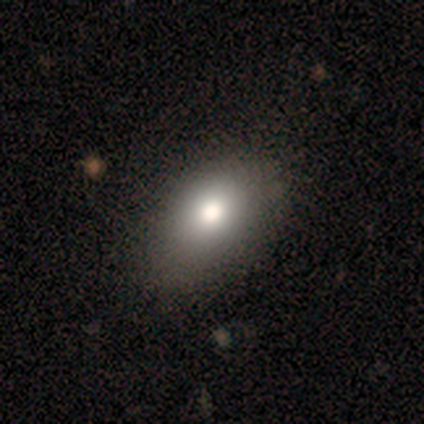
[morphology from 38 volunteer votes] smooth_or_featured: smooth (p=0.71) [alt: featured or disk p=0.21]
how_rounded: in between (p=0.89) [alt: round p=0.11]
merging: none (p=0.49) [alt: minor disturbance p=0.11]